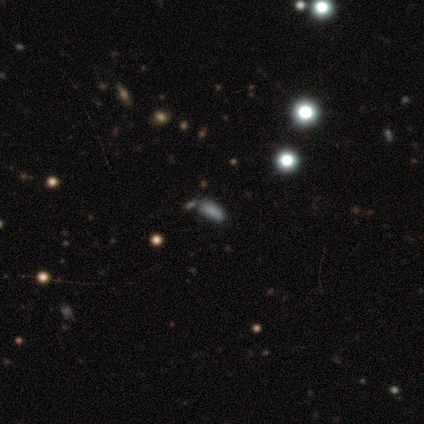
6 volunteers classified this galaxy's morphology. smooth-or-featured: smooth: 50% | featured or disk: 33% | star or artifact: 17%
  how-rounded: in between: 67% | cigar-shaped: 33% | round: 0%
  merging: none: 80% | minor disturbance: 20% | major disturbance: 0% | merger: 0%